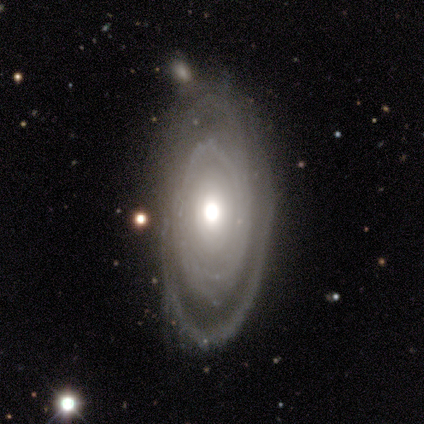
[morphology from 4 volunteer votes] A featured or disk galaxy (100%) with no bar (75%), 2 (50%) tight (75%) spiral arms (100%) and a large central bulge (75%).

Vote fractions:
- Smooth or featured? featured or disk: 100% / smooth: 0% / star or artifact: 0%
- Edge-on disk? no: 100% / yes: 0%
- Bar? no: 75% / strong: 25% / weak: 0%
- Spiral arms? yes: 100% / no: 0%
- Spiral winding? tight: 75% / medium: 25% / loose: 0%
- Spiral arm count? 2: 50% / 1: 25% / 4: 25% / 3: 0% / more than 4: 0% / can't tell: 0%
- Bulge size? large: 75% / moderate: 25% / dominant: 0% / small: 0% / none: 0%
- Merging? none: 75% / major disturbance: 25% / minor disturbance: 0% / merger: 0%